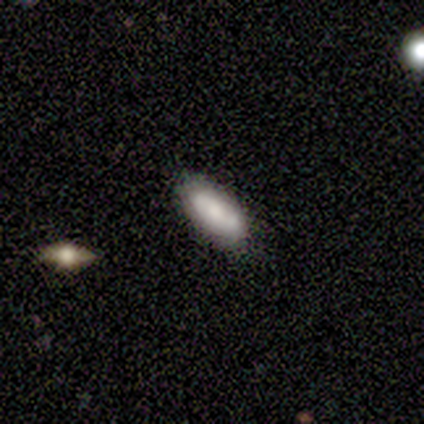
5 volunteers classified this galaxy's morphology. Overall: featured or disk (60%; smooth 20%). Edge-on disk: no (67%; yes 33%). Bar: strong (50%, tied with no). Spiral arms: yes (100%). Spiral arm count: can't tell (100%). Spiral winding: tight (100%). Bulge size: moderate (50%, tied with small). Merging: none (100%).